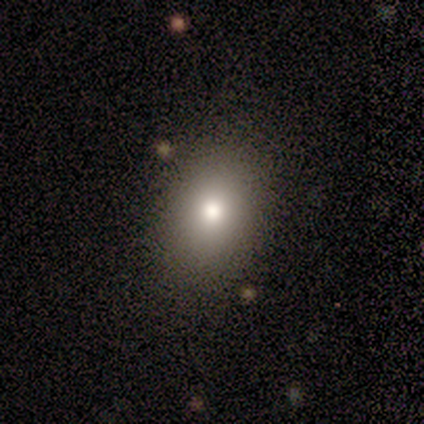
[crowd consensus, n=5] Q: Smooth or featured?
A: smooth (80%); runner-up: star or artifact (20%)
Q: How rounded?
A: in between (75%); runner-up: round (25%)
Q: Merging?
A: none (100%)